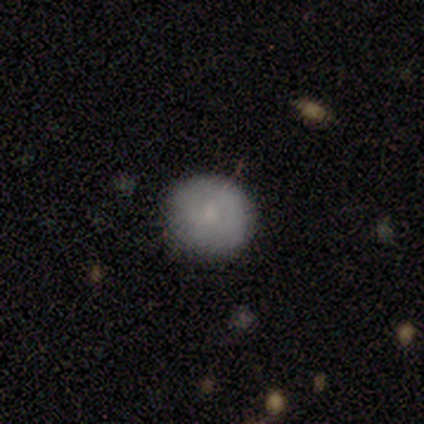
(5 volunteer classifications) smooth_or_featured: smooth (p=1.00)
how_rounded: round (p=1.00)
merging: none (p=0.80) [alt: minor disturbance p=0.20]